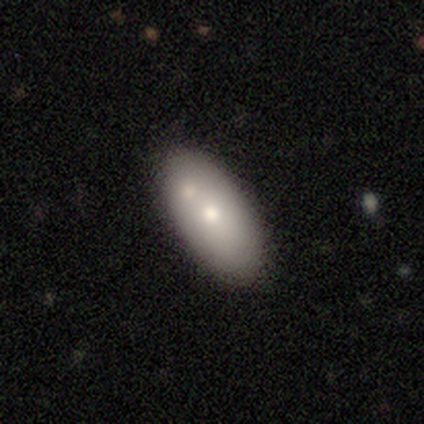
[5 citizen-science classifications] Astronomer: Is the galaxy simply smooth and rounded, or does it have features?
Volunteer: featured or disk — 60%.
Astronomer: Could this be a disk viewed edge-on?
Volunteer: no — 100%.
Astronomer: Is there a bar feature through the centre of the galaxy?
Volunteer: no — 100%.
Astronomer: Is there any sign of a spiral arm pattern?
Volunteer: no — 100%.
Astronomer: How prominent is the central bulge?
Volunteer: large — 33%, tied with moderate and small at 33%.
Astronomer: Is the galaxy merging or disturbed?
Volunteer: none — 75%.